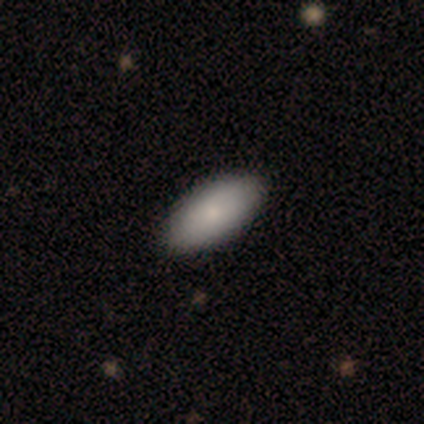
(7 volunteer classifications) A smooth galaxy with no disk features (100%) that is in between round and cigar-shaped (100%). Merging: none (86%).